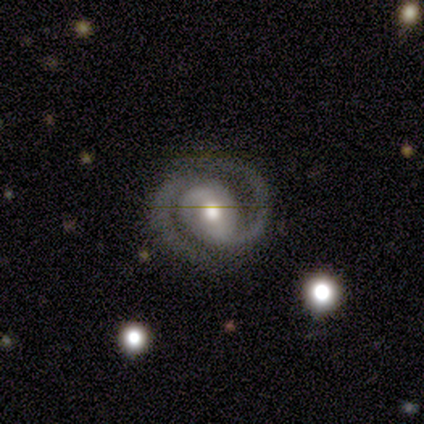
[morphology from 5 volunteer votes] This appears to be a featured or disk galaxy (100%) with a strong bar (60%), 2 (100%) medium (60%) spiral arms (100%) and a moderate central bulge (100%). Merging: none (100%).